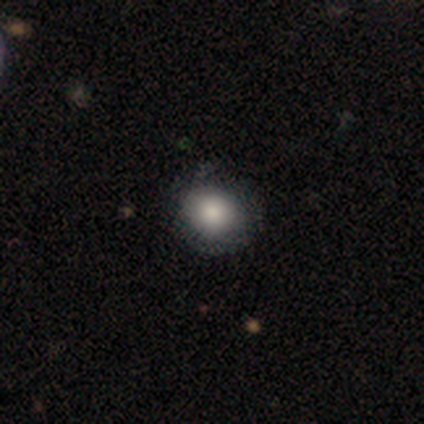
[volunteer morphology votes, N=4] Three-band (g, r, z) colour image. It shows a smooth galaxy with no disk features (100%) that is round (75%). Merging: none (100%).